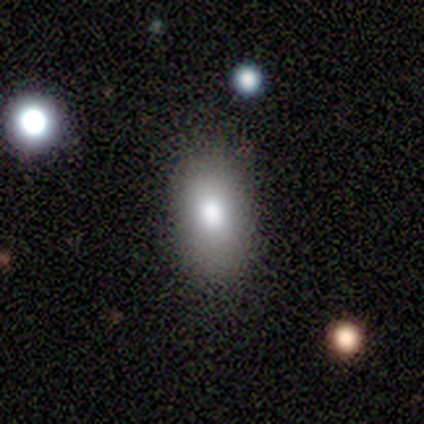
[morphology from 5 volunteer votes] smooth_or_featured: smooth (p=1.00)
how_rounded: in between (p=0.60) [alt: round p=0.40]
merging: none (p=0.80) [alt: merger p=0.20]